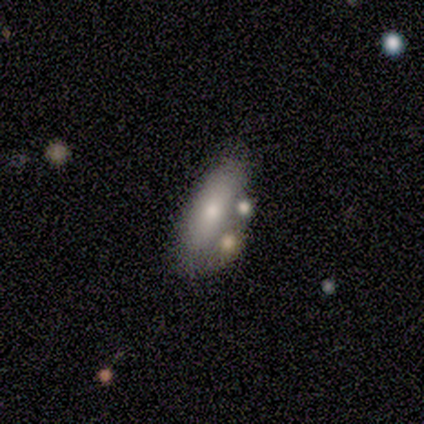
smooth 83%, featured or disk 17%, star or artifact 0%. Down the decision tree: how rounded — in between (60%); merging — none (75%).